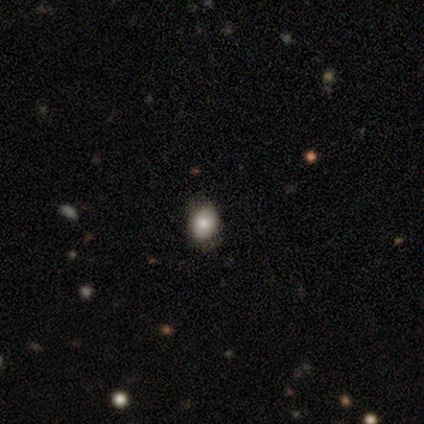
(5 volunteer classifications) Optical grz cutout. It shows a smooth galaxy with no disk features (80%) that is round (50%, tied with in between). Merging: none (80%).